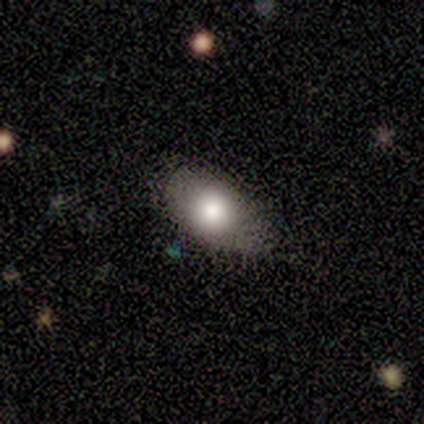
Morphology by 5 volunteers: Overall: smooth (100%). How rounded: in between (80%). Merging: none (80%).